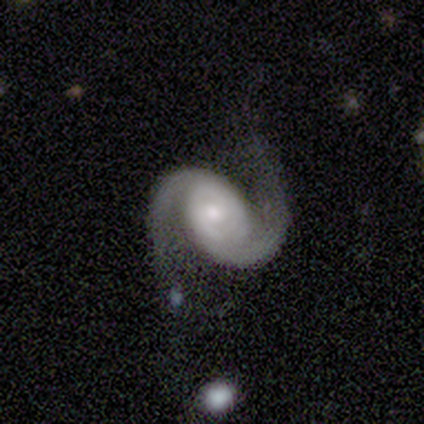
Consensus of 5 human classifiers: A featured or disk galaxy (100%) with a weak bar (60%), 2 (100%) medium (60%) spiral arms (100%) and a small central bulge (60%). Merging: none (80%).